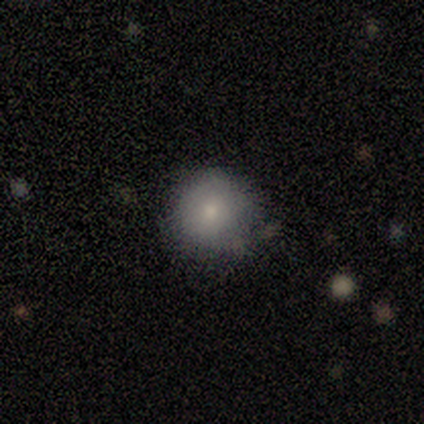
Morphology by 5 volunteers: type=smooth (80%); roundness=round (100%); merging=minor disturbance (60%).